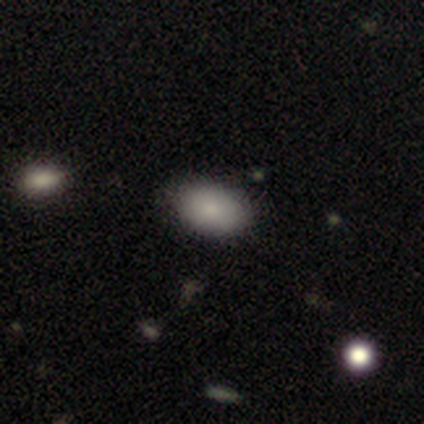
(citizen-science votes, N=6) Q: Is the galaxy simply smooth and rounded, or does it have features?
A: smooth — 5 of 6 (83%).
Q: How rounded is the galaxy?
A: in between — 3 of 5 (60%).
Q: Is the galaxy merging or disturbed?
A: none — 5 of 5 (100%).